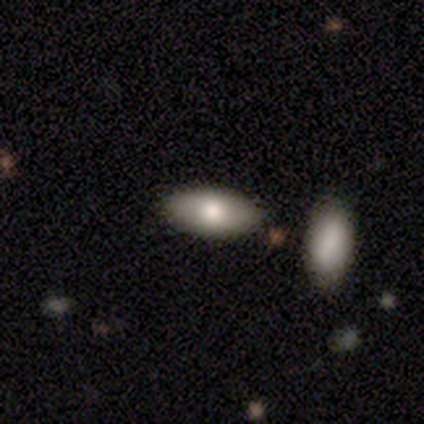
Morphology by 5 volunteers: This appears to be a featured or disk galaxy (60%) with no bar (100%), no spiral arms (100%) and a moderate central bulge (100%). Merging: none (80%).